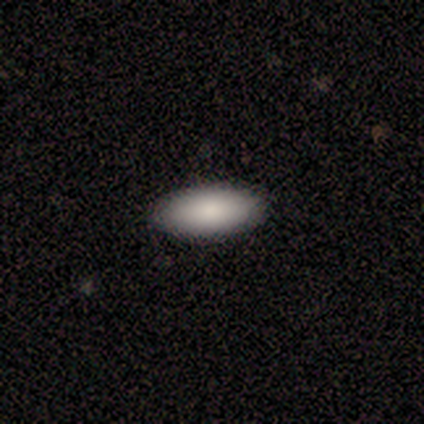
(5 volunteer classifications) Overall: smooth (80%). How rounded: in between (75%). Merging: none (100%).